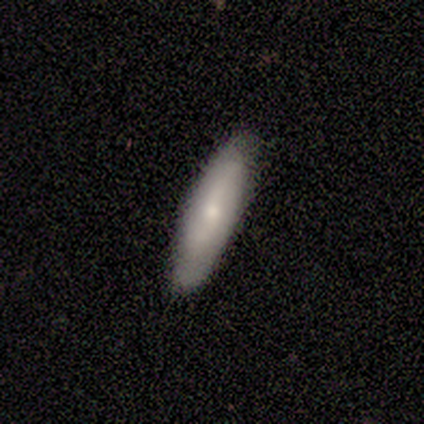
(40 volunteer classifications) Smooth or featured? 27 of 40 (68%) said smooth. How rounded? 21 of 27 (78%) said cigar-shaped. Merging? 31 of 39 (79%) said none.